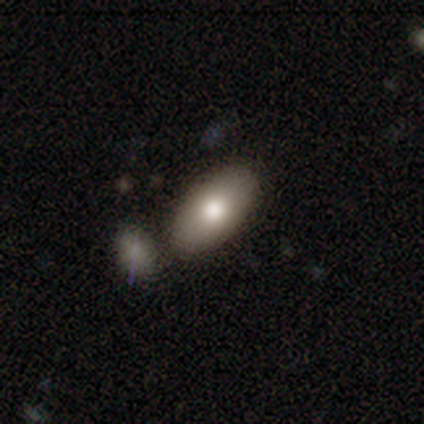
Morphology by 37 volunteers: A smooth galaxy with no disk features (76%) that is in between round and cigar-shaped (100%).

Vote fractions:
- Smooth or featured? smooth: 76% / featured or disk: 22% / star or artifact: 3%
- How rounded? in between: 100% / round: 0% / cigar-shaped: 0%
- Merging? none: 75% / merger: 17% / minor disturbance: 6% / major disturbance: 3%